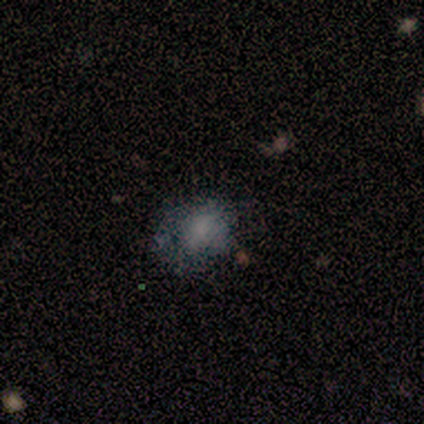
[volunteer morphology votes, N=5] type=smooth (80%); roundness=round (100%); merging=none (40%, tied with minor disturbance).